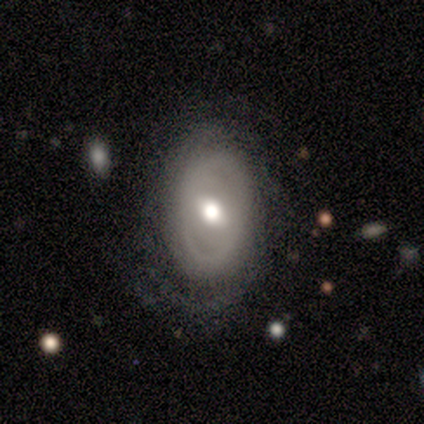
Q: Smooth or featured?
A: featured or disk (40%); tied with: star or artifact (40%)
Q: Edge-on disk?
A: yes (50%); tied with: no (50%)
Q: Edge-on bulge?
A: boxy (100%)
Q: Merging?
A: none (67%); runner-up: merger (33%)